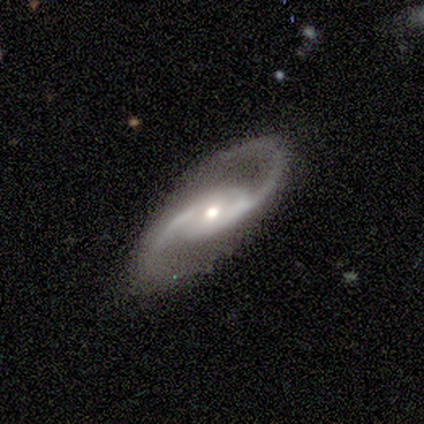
Smooth or featured? 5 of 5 (100%) said featured or disk. Edge-on disk? 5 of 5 (100%) said no. Bar? 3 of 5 (60%) said no. Spiral arms? 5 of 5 (100%) said yes. Spiral winding? 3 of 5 (60%) said medium. Spiral arm count? 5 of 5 (100%) said 2. Bulge size? 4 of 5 (80%) said small. Merging? 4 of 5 (80%) said none.